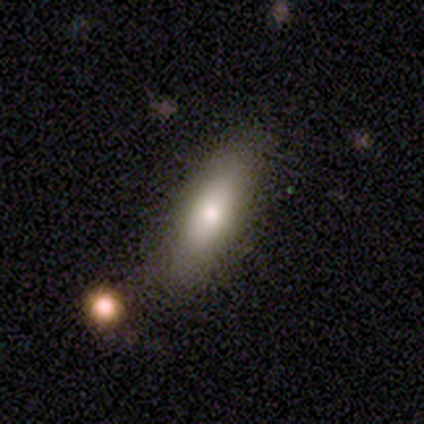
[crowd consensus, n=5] smooth 100%, featured or disk 0%, star or artifact 0%. Down the decision tree: how rounded — in between (60%); merging — none (100%).